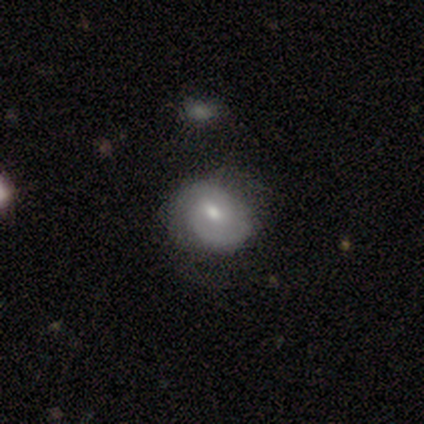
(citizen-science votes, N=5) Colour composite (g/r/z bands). It shows a featured or disk galaxy (60%) with no bar (100%), 2 (100%) tight (100%) spiral arms (50%, tied with no) and a small central bulge (100%). Merging: none (75%).